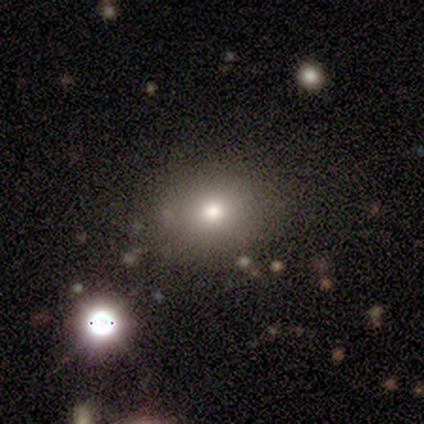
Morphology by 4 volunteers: smooth-or-featured: smooth: 100% | featured or disk: 0% | star or artifact: 0%
  how-rounded: round: 100% | in between: 0% | cigar-shaped: 0%
  merging: none: 75% | minor disturbance: 25% | major disturbance: 0% | merger: 0%